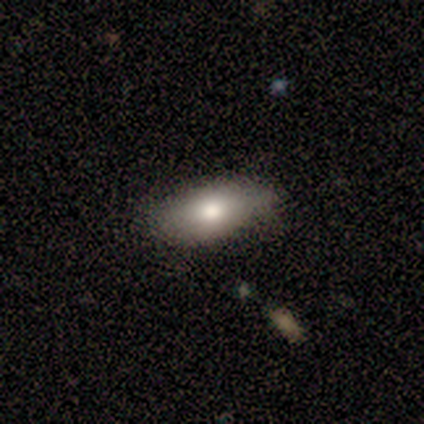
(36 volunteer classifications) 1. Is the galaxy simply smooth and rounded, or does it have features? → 58% smooth, 33% featured or disk, 8% star or artifact.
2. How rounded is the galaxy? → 76% in between, 14% cigar-shaped, 10% round.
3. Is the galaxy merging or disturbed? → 73% none, 18% minor disturbance, 9% major disturbance, 0% merger.